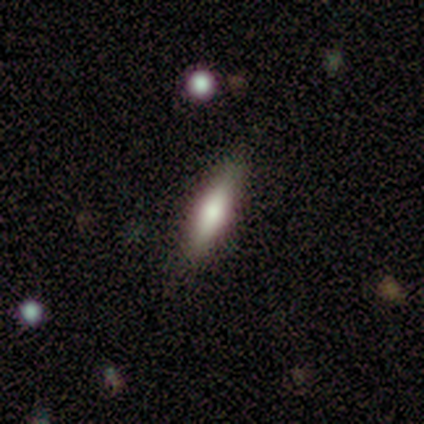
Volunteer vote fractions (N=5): Smooth or featured? 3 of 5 (60%) said featured or disk. Edge-on disk? 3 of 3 (100%) said yes. Edge-on bulge? 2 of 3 (67%) said rounded. Merging? 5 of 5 (100%) said none.